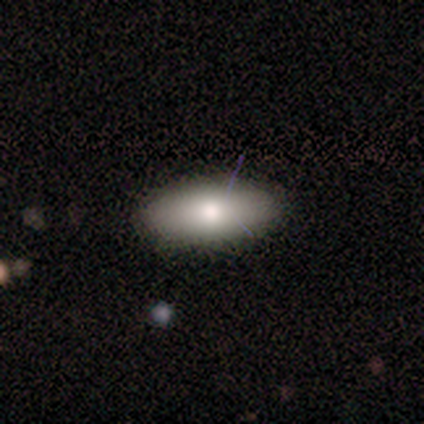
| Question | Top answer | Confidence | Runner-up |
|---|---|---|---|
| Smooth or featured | smooth | 100% | — |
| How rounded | in between | 100% | — |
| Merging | none | 100% | — |